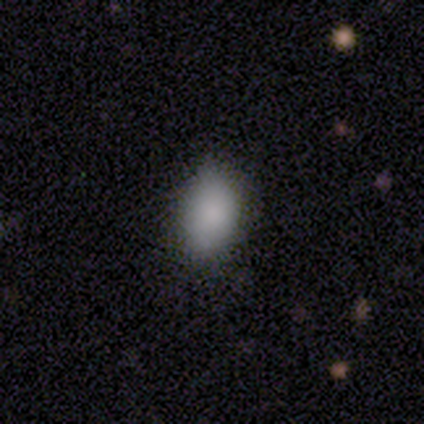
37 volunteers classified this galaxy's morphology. Smooth or featured?
  - smooth: 95% *
  - featured or disk: 3%
  - star or artifact: 3%
How rounded?
  - in between: 97% *
  - round: 3%
  - cigar-shaped: 0%
Merging?
  - none: 75% *
  - minor disturbance: 19%
  - major disturbance: 6%
  - merger: 0%